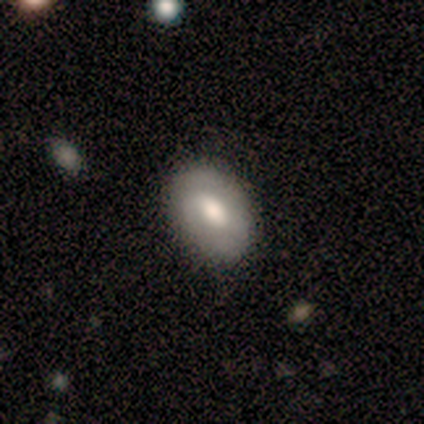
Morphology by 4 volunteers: Overall: smooth (50%, tied with featured or disk). How rounded: round (50%, tied with in between). Merging: none (100%).